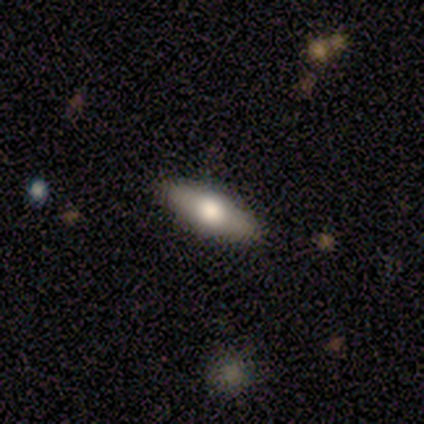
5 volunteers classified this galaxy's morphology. Smooth or featured?
  - featured or disk: 60% *
  - smooth: 40%
  - star or artifact: 0%
Edge-on disk?
  - yes: 100% *
  - no: 0%
Edge-on bulge?
  - rounded: 100% *
  - boxy: 0%
  - none: 0%
Merging?
  - none: 80% *
  - minor disturbance: 20%
  - major disturbance: 0%
  - merger: 0%